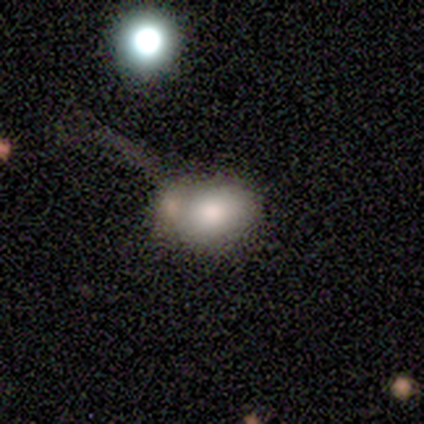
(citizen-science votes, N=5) Overall: smooth (80%). How rounded: in between (100%). Merging: none (50%, tied with merger).